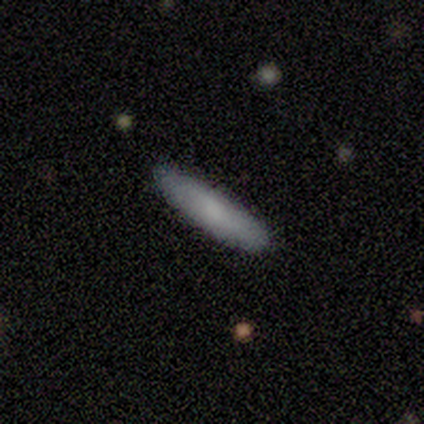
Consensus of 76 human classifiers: Smooth or featured?
  - smooth: 86% *
  - featured or disk: 8%
  - star or artifact: 7%
How rounded?
  - cigar-shaped: 82% *
  - in between: 18%
  - round: 0%
Merging?
  - none: 48% *
  - minor disturbance: 1%
  - major disturbance: 1%
  - merger: 1%